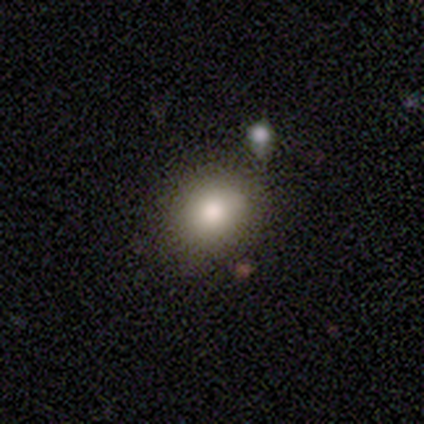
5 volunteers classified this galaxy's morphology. This is clearly a smooth galaxy (100%). How rounded: clearly round (100%). Merging: clearly none (100%).